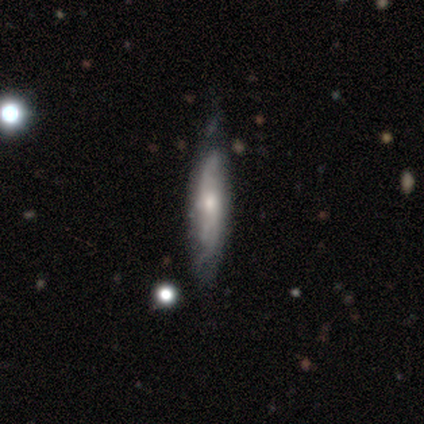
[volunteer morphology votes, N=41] featured or disk 76%, smooth 24%, star or artifact 0%. Down the decision tree: edge-on disk — no (55%); bar — no (88%); spiral arms — yes (94%); spiral arm count — 2 (50%, tied with can't tell); spiral winding — medium (44%); bulge size — small (53%); merging — minor disturbance (49%).